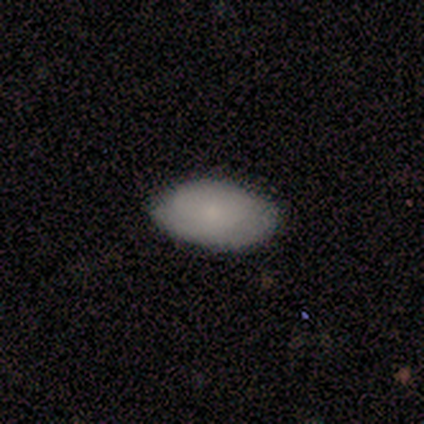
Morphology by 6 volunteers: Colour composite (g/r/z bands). It shows a smooth galaxy with no disk features (100%) that is in between round and cigar-shaped (100%). Merging: none (100%).